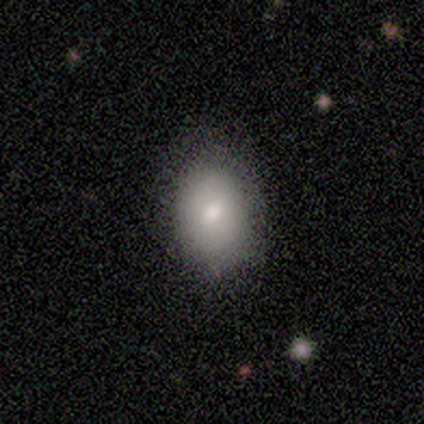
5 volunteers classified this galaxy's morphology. This appears to be a smooth galaxy with no disk features (80%) that is in between round and cigar-shaped (100%). Merging: none (80%).